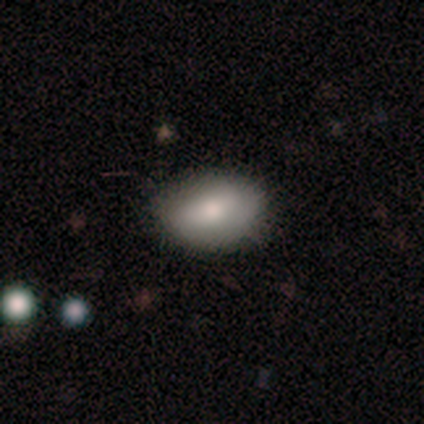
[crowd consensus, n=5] This is likely a smooth galaxy (60%). How rounded: clearly in between (100%). Merging: clearly none (80%).